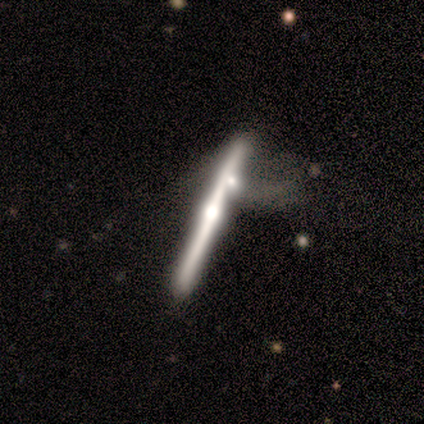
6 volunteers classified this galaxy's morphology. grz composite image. It shows a featured or disk galaxy (100%) viewed edge-on (100%) with a rounded central bulge (100%). Merging: merger (50%).